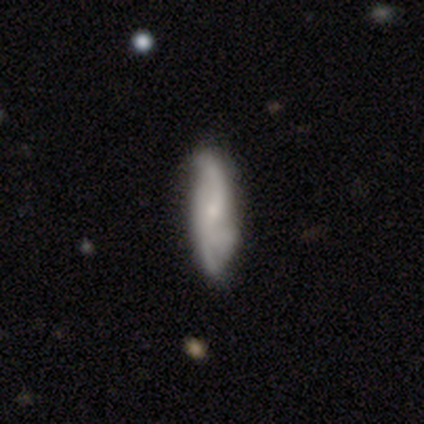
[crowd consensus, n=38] Smooth or featured: featured or disk — 50% (smooth — 45%)
Edge-on disk: no — 84% (yes — 16%)
Bar: no — 44% (weak — 38%)
Spiral arms: yes — 88% (no — 12%)
Spiral winding: medium — 50% (loose — 43%)
Spiral arm count: 2 — 43% (can't tell — 29%)
Bulge size: small — 69% (moderate — 25%)
Merging: none — 61% (minor disturbance — 22%)